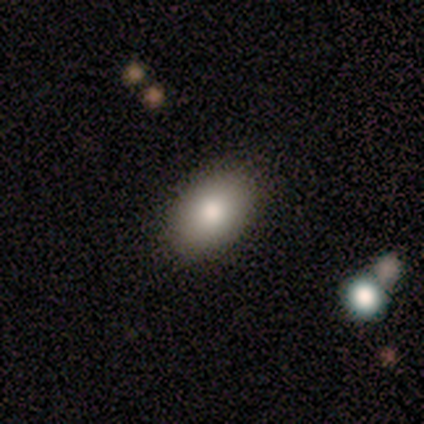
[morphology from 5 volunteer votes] A smooth galaxy with no disk features (100%) that is in between round and cigar-shaped (100%). Merging: none (100%).